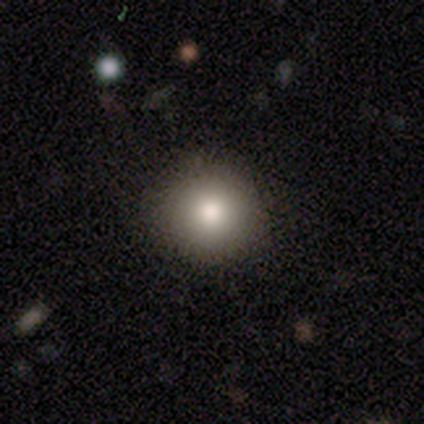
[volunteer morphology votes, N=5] smooth-or-featured: smooth: 60% | featured or disk: 40% | star or artifact: 0%
  how-rounded: round: 100% | in between: 0% | cigar-shaped: 0%
  merging: none: 100% | minor disturbance: 0% | major disturbance: 0% | merger: 0%